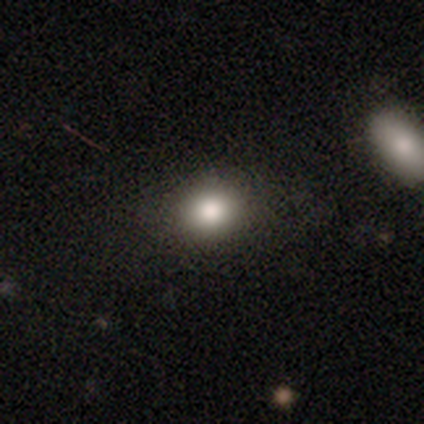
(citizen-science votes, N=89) Volunteers were most divided on "how rounded": round: 56%, in between: 43%, cigar-shaped: 1%. More confident: merging — none (85%); smooth or featured — smooth (81%).